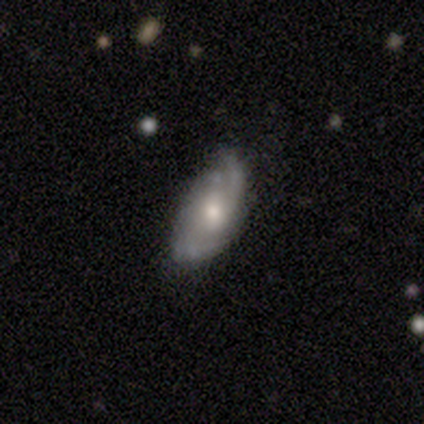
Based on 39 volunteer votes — A featured or disk galaxy (77%) with no bar (68%), 2 (38%) medium (42%) spiral arms (86%) and a moderate central bulge (64%).

Vote fractions:
- Smooth or featured? featured or disk: 77% / smooth: 21% / star or artifact: 3%
- Edge-on disk? no: 93% / yes: 7%
- Bar? no: 68% / weak: 25% / strong: 7%
- Spiral arms? yes: 86% / no: 14%
- Spiral winding? medium: 42% / tight: 29% / loose: 29%
- Spiral arm count? 2: 38% / can't tell: 21% / 4: 17% / 1: 12% / 3: 12% / more than 4: 0%
- Bulge size? moderate: 64% / small: 21% / large: 7% / dominant: 4% / none: 4%
- Merging? none: 71% / minor disturbance: 26% / major disturbance: 3% / merger: 0%